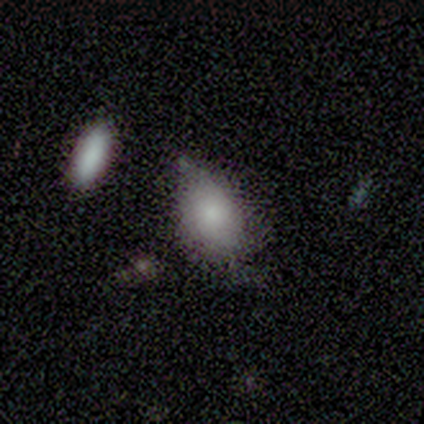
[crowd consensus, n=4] smooth 100%, featured or disk 0%, star or artifact 0%. Down the decision tree: how rounded — in between (100%); merging — minor disturbance (75%).